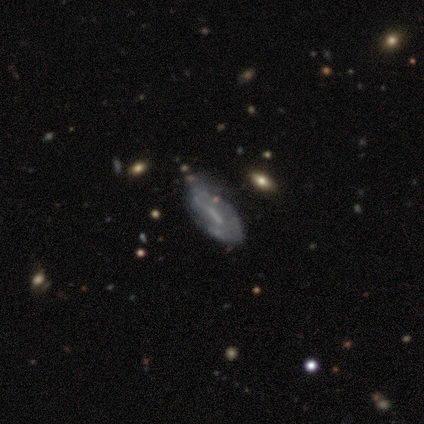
Q: Smooth or featured?
A: featured or disk (87%); runner-up: smooth (10%)
Q: Edge-on disk?
A: no (94%); runner-up: yes (6%)
Q: Bar?
A: weak (41%); runner-up: strong (34%)
Q: Spiral arms?
A: no (59%); runner-up: yes (41%)
Q: Bulge size?
A: none (47%); runner-up: small (38%)
Q: Merging?
A: none (26%); tied with: minor disturbance (26%)